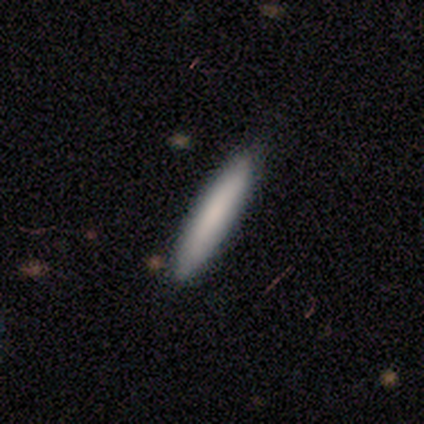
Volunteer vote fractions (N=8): A smooth galaxy with no disk features (88%) that is cigar-shaped (86%). Merging: none (88%).